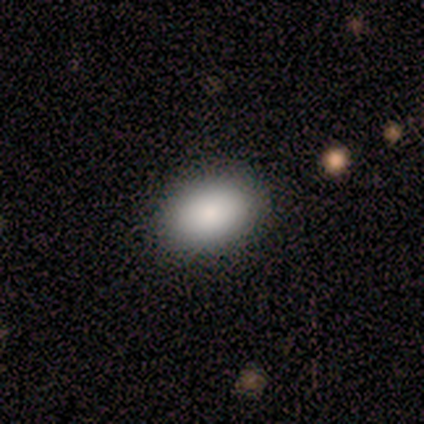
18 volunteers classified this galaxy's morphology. Smooth or featured?
  - smooth: 94% *
  - star or artifact: 6%
  - featured or disk: 0%
How rounded?
  - in between: 100% *
  - round: 0%
  - cigar-shaped: 0%
Merging?
  - none: 76% *
  - minor disturbance: 24%
  - major disturbance: 0%
  - merger: 0%